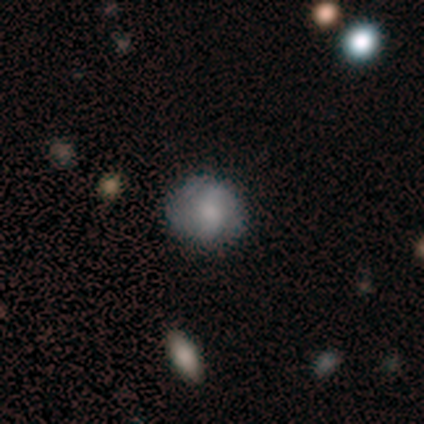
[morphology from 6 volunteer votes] A smooth galaxy with no disk features (50%, tied with featured or disk) that is round (100%). Merging: none (83%).